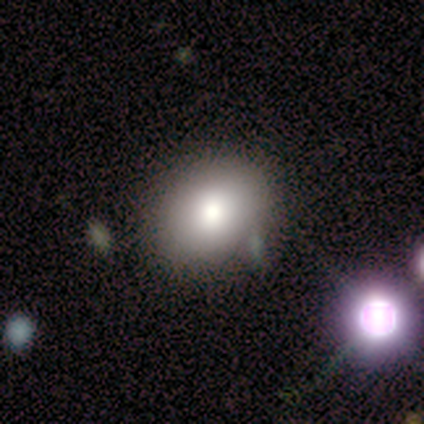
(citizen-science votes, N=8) This appears to be a smooth galaxy with no disk features (62%) that is round (60%). Merging: none (83%).